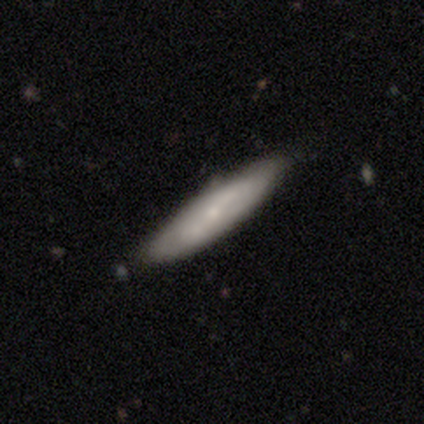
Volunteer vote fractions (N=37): Q: Smooth or featured?
A: smooth (76%); runner-up: featured or disk (24%)
Q: How rounded?
A: cigar-shaped (79%); runner-up: in between (21%)
Q: Merging?
A: none (76%); runner-up: minor disturbance (16%)